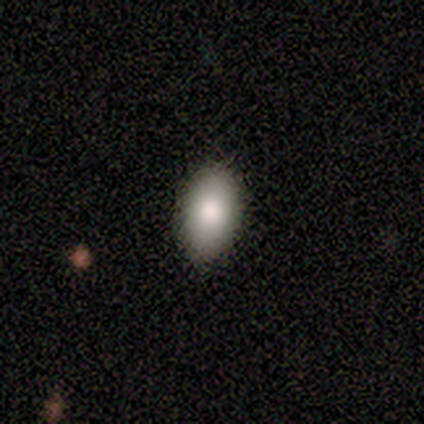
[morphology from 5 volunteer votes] This appears to be a smooth galaxy with no disk features (80%) that is in between round and cigar-shaped (100%). Merging: none (100%).